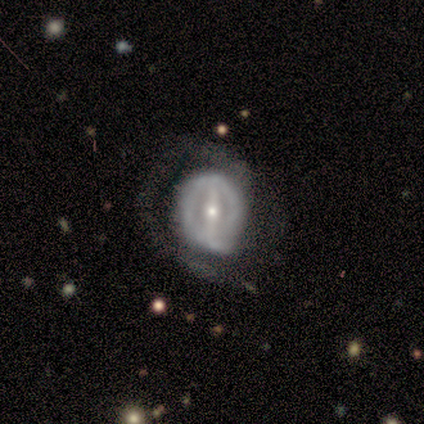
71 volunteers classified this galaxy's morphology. Smooth or featured: featured or disk — 87% (star or artifact — 7%)
Edge-on disk: no — 98% (yes — 2%)
Bar: strong — 70% (weak — 26%)
Spiral arms: yes — 62% (no — 38%)
Spiral winding: tight — 50% (medium — 37%)
Spiral arm count: 2 — 39% (1 — 32%)
Bulge size: small — 59% (moderate — 41%)
Merging: none — 53% (major disturbance — 30%)